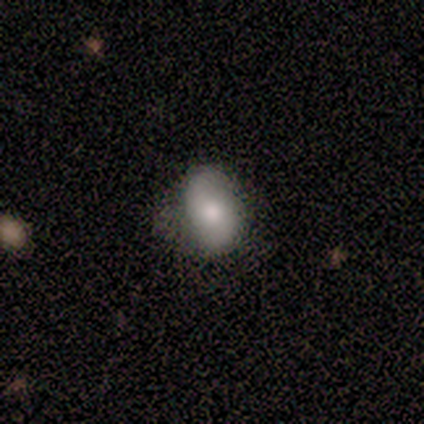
Morphology: type=smooth (40%, tied with featured or disk); roundness=round (50%, tied with in between); merging=none (75%).